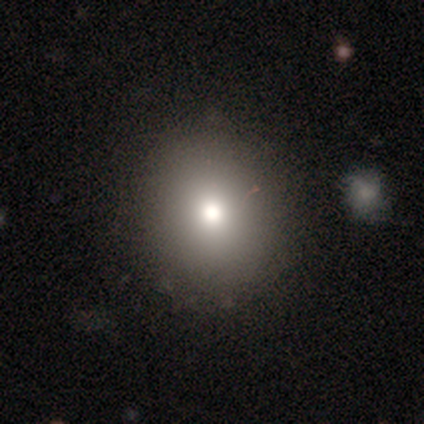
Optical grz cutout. It shows a smooth galaxy with no disk features (75%) that is round (83%). Merging: none (100%).